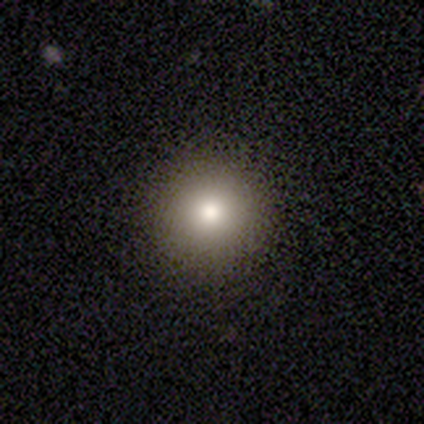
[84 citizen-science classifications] Smooth or featured?
  - smooth: 74% *
  - featured or disk: 13%
  - star or artifact: 13%
How rounded?
  - round: 98% *
  - cigar-shaped: 2%
  - in between: 0%
Merging?
  - none: 90% *
  - minor disturbance: 7%
  - major disturbance: 1%
  - merger: 1%